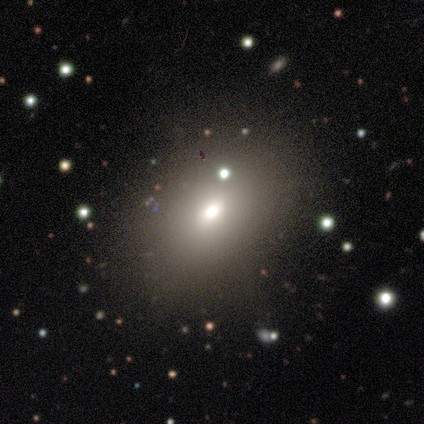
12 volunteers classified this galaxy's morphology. Overall: smooth (75%). How rounded: in between (100%). Merging: none (60%; major disturbance 20%).